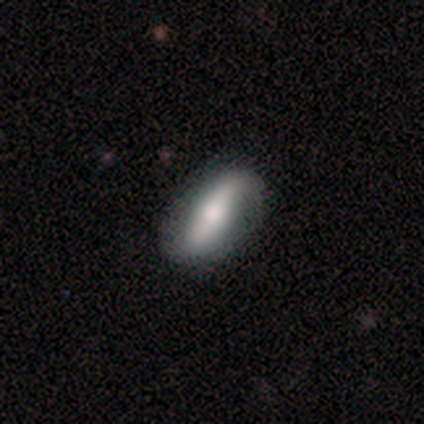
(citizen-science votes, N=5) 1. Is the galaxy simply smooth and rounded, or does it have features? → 80% featured or disk, 20% smooth, 0% star or artifact.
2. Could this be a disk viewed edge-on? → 100% no, 0% yes.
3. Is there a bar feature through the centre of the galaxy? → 100% strong, 0% weak, 0% no.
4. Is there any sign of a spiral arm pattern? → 50% yes (tied), 50% no (tied).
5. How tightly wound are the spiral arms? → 100% loose, 0% tight, 0% medium.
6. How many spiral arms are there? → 100% 2, 0% 1, 0% 3, 0% 4, 0% more than 4, 0% can't tell.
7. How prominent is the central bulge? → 75% moderate, 25% large, 0% dominant, 0% small, 0% none.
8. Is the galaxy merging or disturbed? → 80% none, 20% minor disturbance, 0% major disturbance, 0% merger.